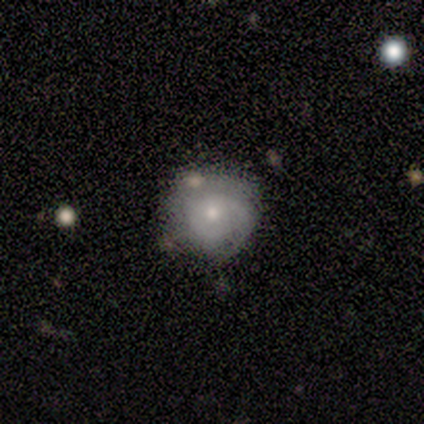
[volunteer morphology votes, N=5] Smooth or featured: featured or disk — 80% (smooth — 20%)
Edge-on disk: no — 100%
Bar: no — 100%
Spiral arms: yes — 75% (no — 25%)
Spiral winding: tight — 67% (medium — 33%)
Spiral arm count: 2 — 100%
Bulge size: moderate — 50% (tied with small — 50%)
Merging: none — 100%